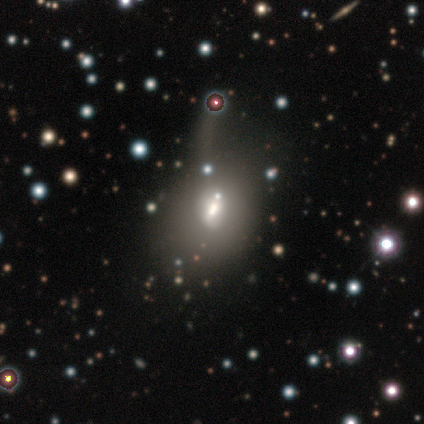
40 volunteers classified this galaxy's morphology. Volunteers were most divided on "smooth or featured": smooth: 45%, star or artifact: 32%, featured or disk: 22%. Remaining: how rounded — in between (94%); merging — merger (37%).